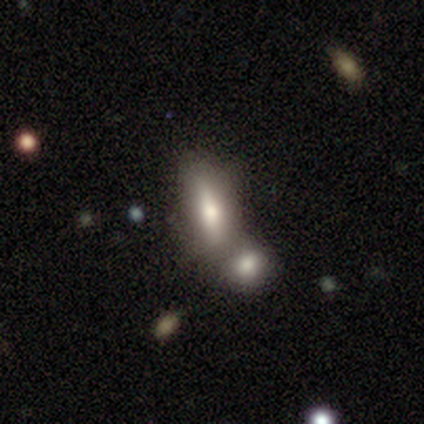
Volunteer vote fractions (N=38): Morphology: type=smooth (68%); roundness=in between (54%); merging=merger (68%).